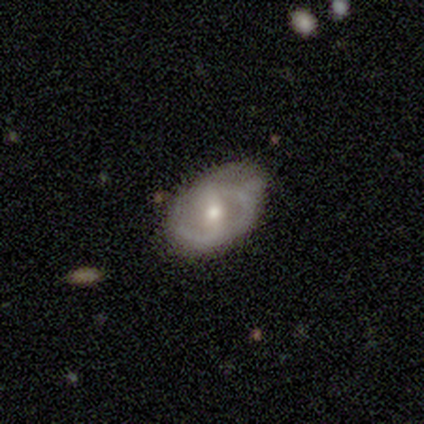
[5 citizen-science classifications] smooth-or-featured: featured or disk: 60% | smooth: 40% | star or artifact: 0%
  disk-edge-on: no: 100% | yes: 0%
    bar: strong: 33% (tied) | weak: 33% (tied) | no: 33% (tied)
    has-spiral-arms: no: 67% | yes: 33%
    bulge-size: moderate: 67% | small: 33% | dominant: 0% | large: 0% | none: 0%
  merging: none: 80% | minor disturbance: 20% | major disturbance: 0% | merger: 0%